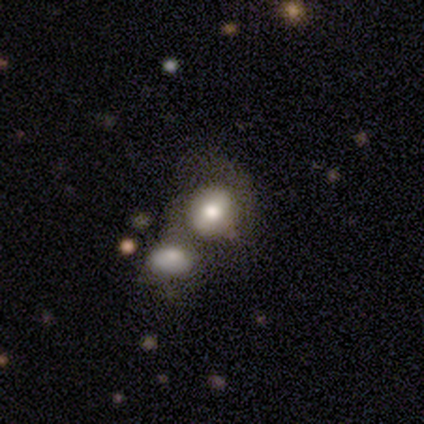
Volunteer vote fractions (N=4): This is possibly a featured or disk galaxy (50%). It is clearly not viewed edge-on (100%). Bar: clearly no (100%). Spiral arm pattern: possibly yes (50%, tied with no). Spiral arm count: clearly can't tell (100%). Spiral winding: clearly medium (100%). Central bulge: possibly large (50%, tied with small). Merging: clearly merger (100%).